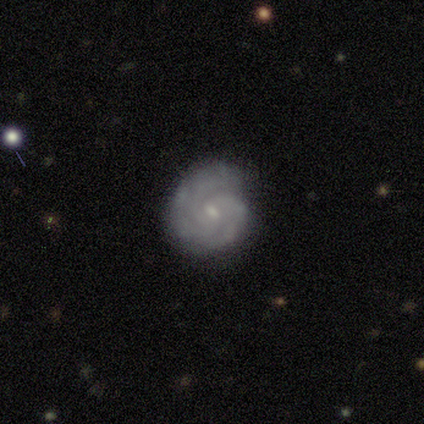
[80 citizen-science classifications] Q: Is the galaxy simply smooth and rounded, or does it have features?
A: featured or disk — 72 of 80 (90%).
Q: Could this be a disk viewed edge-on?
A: no — 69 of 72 (96%).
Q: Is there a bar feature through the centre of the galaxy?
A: weak — 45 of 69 (65%).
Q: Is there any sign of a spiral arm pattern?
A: yes — 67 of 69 (97%).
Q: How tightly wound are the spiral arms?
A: tight — 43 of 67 (64%).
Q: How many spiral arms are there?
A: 3 — 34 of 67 (51%).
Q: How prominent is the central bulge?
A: small — 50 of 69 (72%).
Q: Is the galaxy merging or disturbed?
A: none — 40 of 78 (51%).